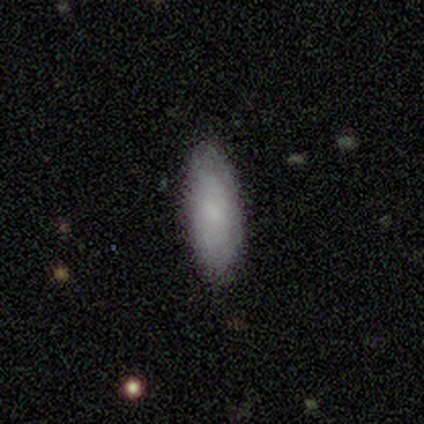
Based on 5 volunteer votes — Q: Smooth or featured?
A: smooth (60%); runner-up: featured or disk (20%)
Q: How rounded?
A: in between (67%); runner-up: cigar-shaped (33%)
Q: Merging?
A: none (100%)